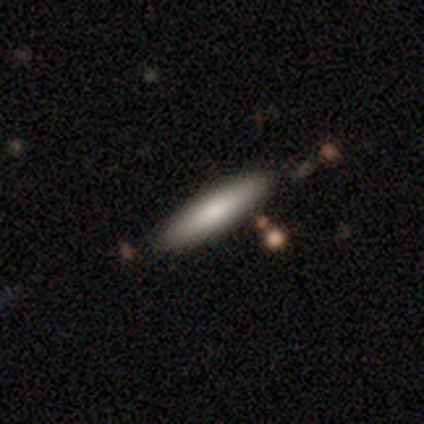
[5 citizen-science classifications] smooth_or_featured: smooth (p=1.00)
how_rounded: cigar-shaped (p=0.60) [alt: in between p=0.40]
merging: none (p=1.00)